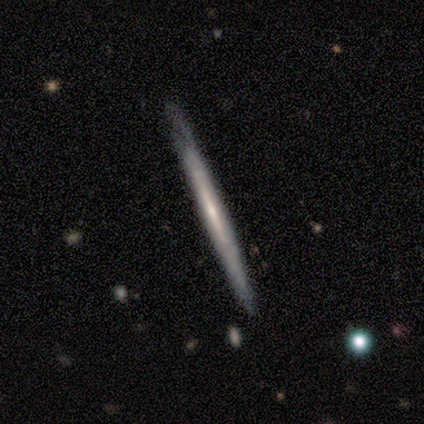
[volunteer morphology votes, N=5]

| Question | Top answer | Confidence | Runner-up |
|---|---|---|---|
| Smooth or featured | smooth | 60% | featured or disk (40%) |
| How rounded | cigar-shaped | 100% | — |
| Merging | none | 100% | — |